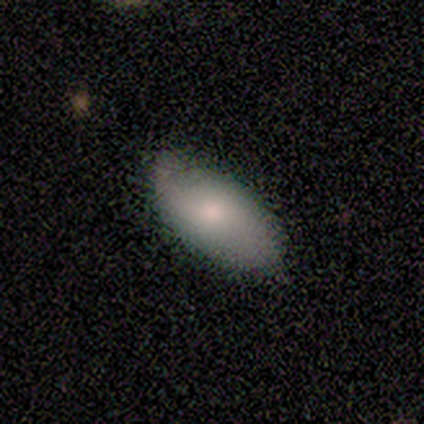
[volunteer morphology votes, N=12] Q: Smooth or featured?
A: smooth (67%); runner-up: featured or disk (33%)
Q: How rounded?
A: in between (100%)
Q: Merging?
A: none (58%); runner-up: minor disturbance (33%)